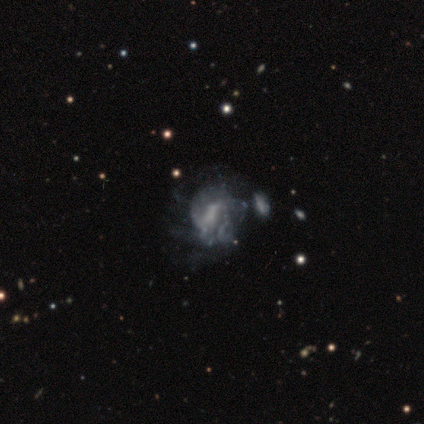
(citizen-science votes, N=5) Q: Smooth or featured?
A: featured or disk (80%); runner-up: smooth (20%)
Q: Edge-on disk?
A: no (100%)
Q: Bar?
A: no (50%); runner-up: strong (25%)
Q: Spiral arms?
A: yes (75%); runner-up: no (25%)
Q: Spiral winding?
A: medium (67%); runner-up: loose (33%)
Q: Spiral arm count?
A: can't tell (67%); runner-up: more than 4 (33%)
Q: Bulge size?
A: moderate (50%); runner-up: small (25%)
Q: Merging?
A: minor disturbance (40%); tied with: major disturbance (40%)